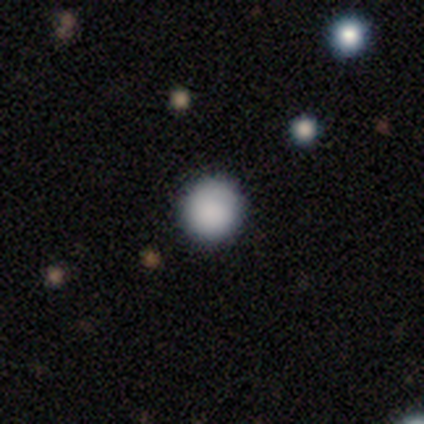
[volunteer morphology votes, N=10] Smooth or featured?
  - smooth: 100% *
  - featured or disk: 0%
  - star or artifact: 0%
How rounded?
  - round: 100% *
  - in between: 0%
  - cigar-shaped: 0%
Merging?
  - none: 100% *
  - minor disturbance: 0%
  - major disturbance: 0%
  - merger: 0%